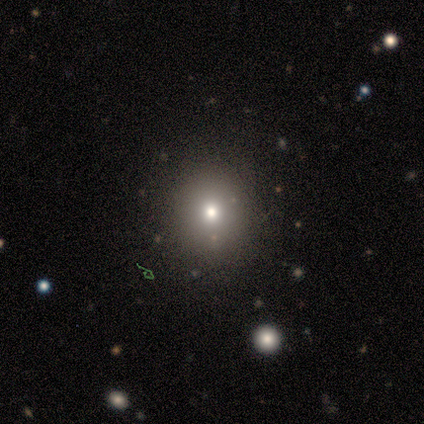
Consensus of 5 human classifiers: Smooth or featured? smooth (40%, tied with star or artifact)
How rounded? round (100%)
Merging? none (67%)